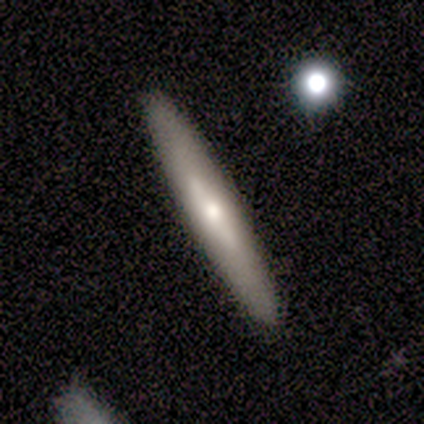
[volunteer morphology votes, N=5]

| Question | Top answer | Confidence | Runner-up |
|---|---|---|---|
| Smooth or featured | featured or disk | 80% | smooth (20%) |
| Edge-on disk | yes | 75% | no (25%) |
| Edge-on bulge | boxy | 33% | tied: none (33%), rounded (33%) |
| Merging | none | 80% | minor disturbance (20%) |